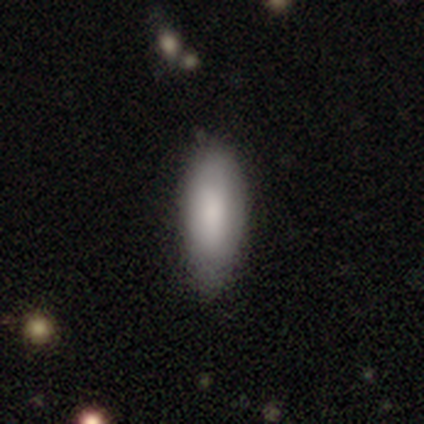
smooth 89%, featured or disk 6%, star or artifact 6%. Down the decision tree: how rounded — in between (77%); merging — none (76%).